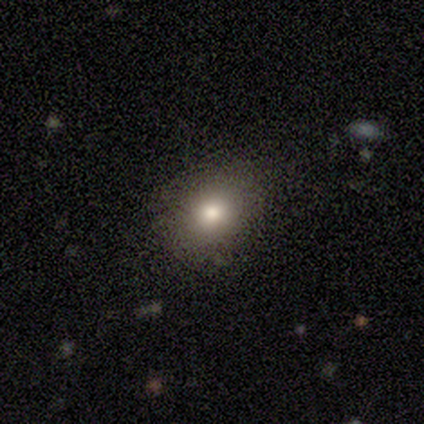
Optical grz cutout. It shows a smooth galaxy with no disk features (80%) that is round (75%). Merging: none (60%).